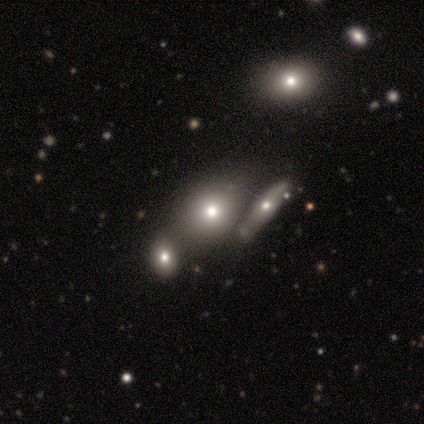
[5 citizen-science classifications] Overall: smooth (80%). How rounded: round (50%, tied with in between). Merging: none (80%).